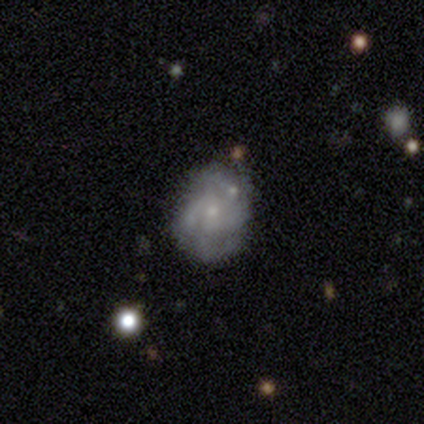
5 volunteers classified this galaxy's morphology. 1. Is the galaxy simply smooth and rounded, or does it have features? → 80% featured or disk, 20% smooth, 0% star or artifact.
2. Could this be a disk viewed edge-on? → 100% no, 0% yes.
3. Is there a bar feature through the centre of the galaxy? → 100% no, 0% strong, 0% weak.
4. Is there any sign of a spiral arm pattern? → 100% yes, 0% no.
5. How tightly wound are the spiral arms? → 50% medium, 25% tight, 25% loose.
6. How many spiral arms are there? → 50% can't tell, 25% 2, 25% 4, 0% 1, 0% 3, 0% more than 4.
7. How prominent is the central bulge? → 75% small, 25% moderate, 0% dominant, 0% large, 0% none.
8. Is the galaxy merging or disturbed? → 60% minor disturbance, 40% none, 0% major disturbance, 0% merger.